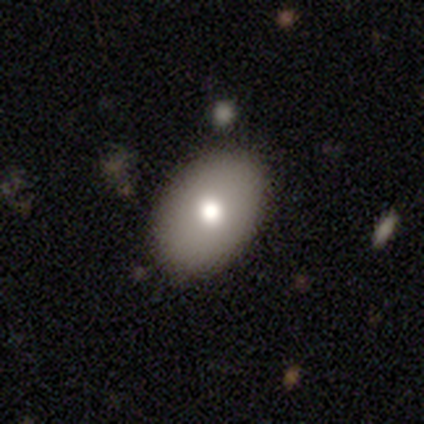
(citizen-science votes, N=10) smooth 70%, featured or disk 20%, star or artifact 10%. Down the decision tree: how rounded — in between (100%); merging — none (89%).